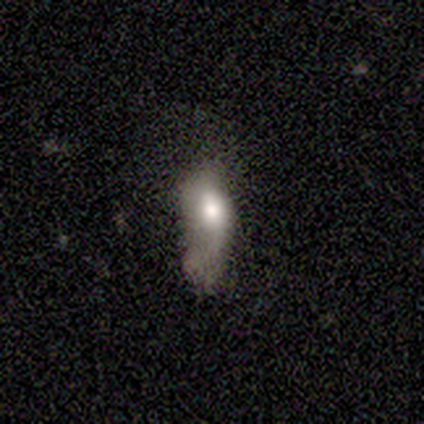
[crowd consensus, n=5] Smooth or featured: smooth — 40% (tied with featured or disk — 40%)
How rounded: in between — 100%
Merging: major disturbance — 75% (merger — 25%)